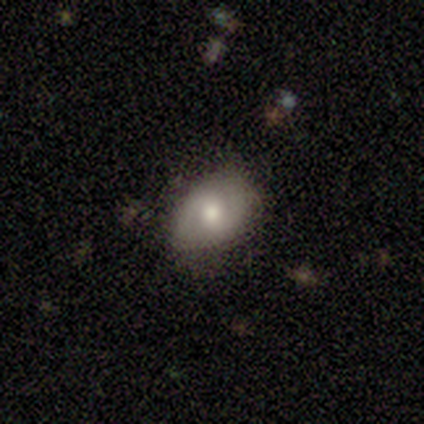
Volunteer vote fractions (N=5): Smooth or featured: smooth — 80% (featured or disk — 20%)
How rounded: in between — 100%
Merging: none — 80% (minor disturbance — 20%)